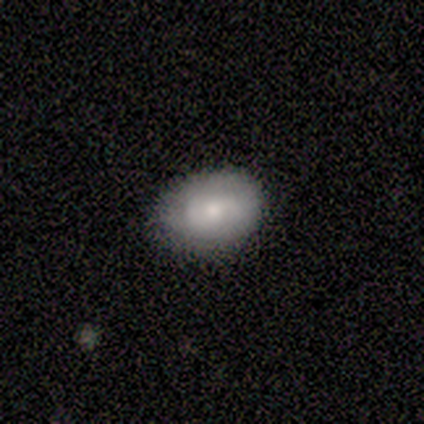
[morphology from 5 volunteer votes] Smooth or featured? 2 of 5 (40%, tied with featured or disk) said smooth. How rounded? 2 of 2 (100%) said in between. Merging? 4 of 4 (100%) said none.